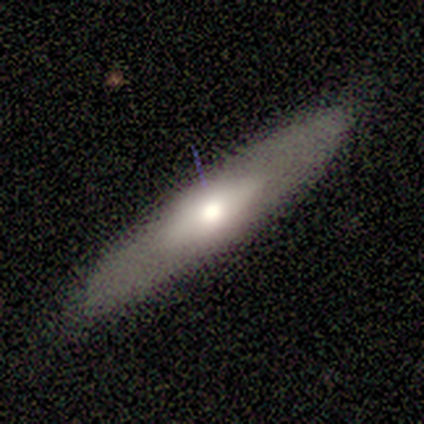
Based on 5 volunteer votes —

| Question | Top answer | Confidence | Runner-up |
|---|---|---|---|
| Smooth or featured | smooth | 80% | featured or disk (20%) |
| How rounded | cigar-shaped | 75% | in between (25%) |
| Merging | none | 100% | — |